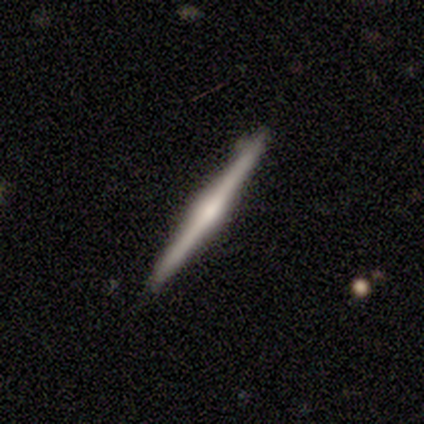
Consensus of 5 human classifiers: featured or disk 60%, smooth 40%, star or artifact 0%. Down the decision tree: edge-on disk — yes (100%); edge-on bulge — rounded (67%); merging — none (100%).